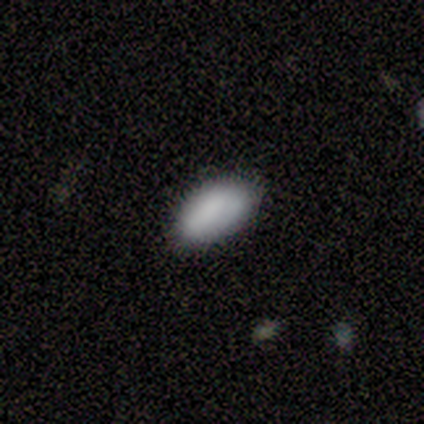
smooth 100%, featured or disk 0%, star or artifact 0%. Down the decision tree: how rounded — in between (100%); merging — none (80%).